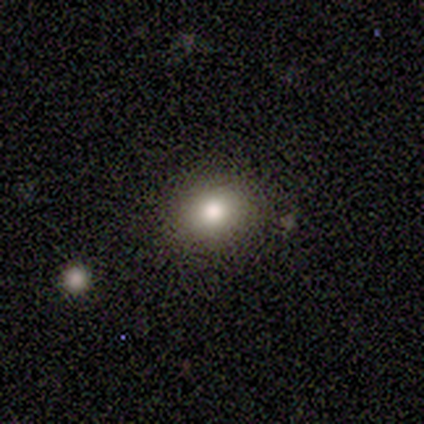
smooth-or-featured: smooth: 100% | featured or disk: 0% | star or artifact: 0%
  how-rounded: round: 60% | in between: 40% | cigar-shaped: 0%
  merging: none: 100% | minor disturbance: 0% | major disturbance: 0% | merger: 0%